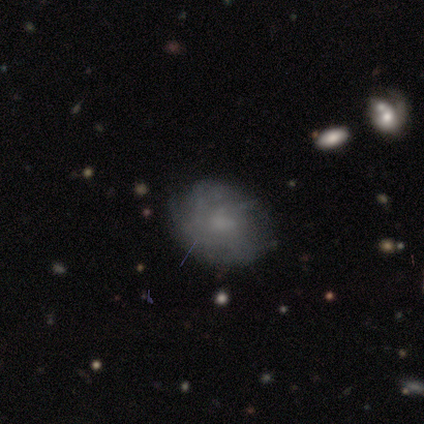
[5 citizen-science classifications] smooth_or_featured: smooth (p=0.40) [tied with: featured or disk p=0.40]
how_rounded: in between (p=1.00)
merging: none (p=0.50) [alt: minor disturbance p=0.25]